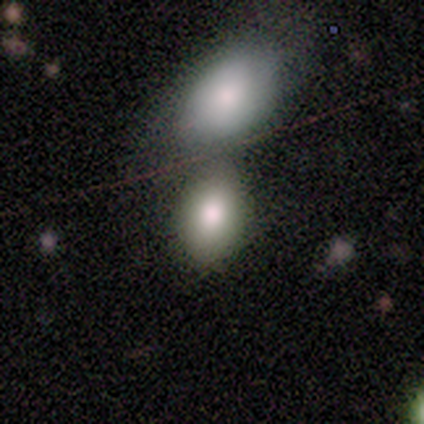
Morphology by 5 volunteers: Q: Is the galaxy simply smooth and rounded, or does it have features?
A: smooth — 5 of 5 (100%).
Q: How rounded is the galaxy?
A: in between — 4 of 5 (80%).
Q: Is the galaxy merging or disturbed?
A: merger — 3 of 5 (60%).